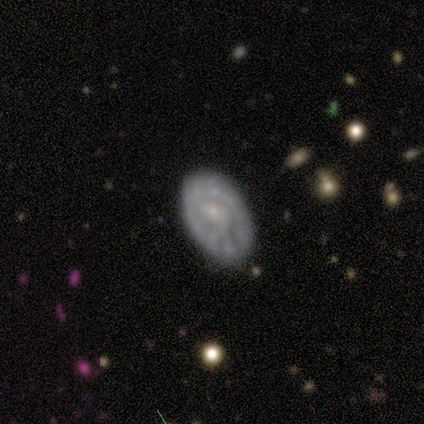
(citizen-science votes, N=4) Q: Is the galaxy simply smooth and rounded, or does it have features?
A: featured or disk — 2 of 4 (50%, tied with star or artifact).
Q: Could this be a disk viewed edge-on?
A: no — 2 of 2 (100%).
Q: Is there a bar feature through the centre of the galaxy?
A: weak — 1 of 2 (50%, tied with no).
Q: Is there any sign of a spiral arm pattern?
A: yes — 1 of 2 (50%, tied with no).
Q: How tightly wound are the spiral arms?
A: tight — 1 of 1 (100%).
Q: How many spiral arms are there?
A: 2 — 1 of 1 (100%).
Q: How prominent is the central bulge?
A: small — 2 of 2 (100%).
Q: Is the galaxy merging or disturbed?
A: none — 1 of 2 (50%, tied with minor disturbance).